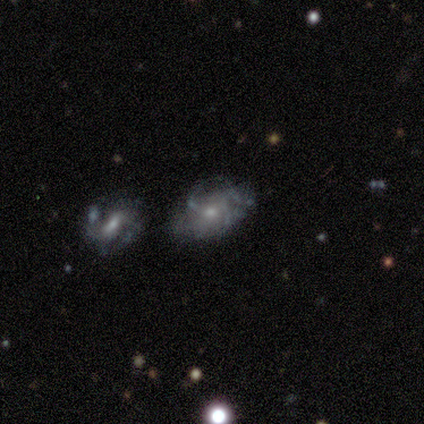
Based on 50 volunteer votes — A featured or disk galaxy (84%) with no bar (80%), medium (46%) spiral arms (63%) and a small central bulge (56%). Merging: none (33%).